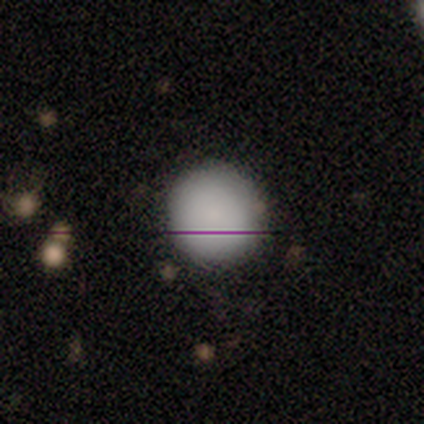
Morphology: type=smooth (100%); roundness=round (80%); merging=none (100%).